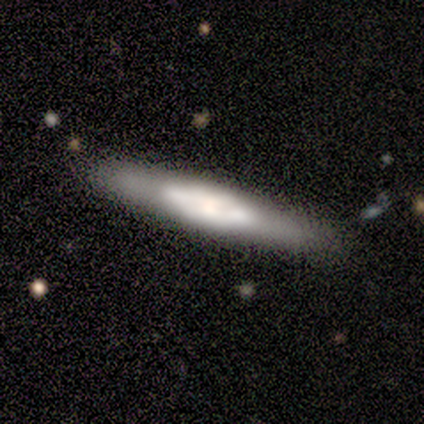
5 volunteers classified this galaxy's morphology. Volunteers were most divided on "edge-on bulge": none: 67%, rounded: 33%, boxy: 0%. More confident: edge-on disk — yes (100%); merging — none (100%); smooth or featured — featured or disk (60%).